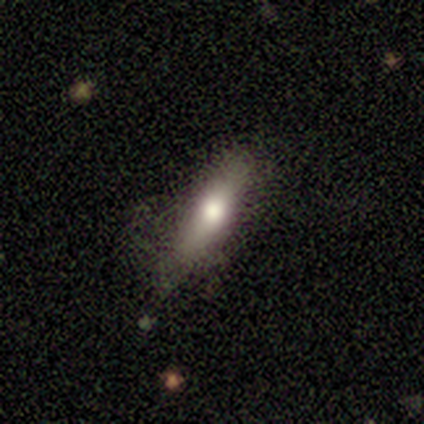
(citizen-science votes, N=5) Smooth or featured: smooth — 60% (featured or disk — 40%)
How rounded: cigar-shaped — 67% (in between — 33%)
Merging: none — 100%